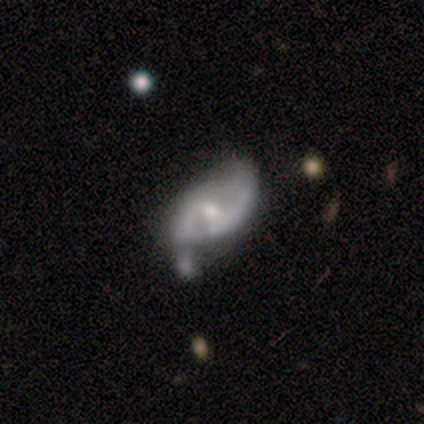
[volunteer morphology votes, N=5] type=featured or disk (100%); edge-on=no (100%); bar=no (80%); spiral arms=no (80%); bulge=moderate (60%); merging=merger (40%).